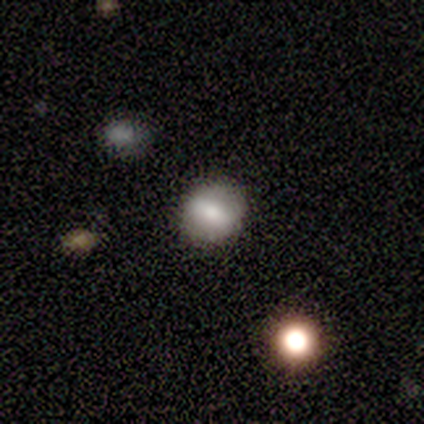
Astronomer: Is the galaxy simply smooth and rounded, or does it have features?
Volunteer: smooth — 66%.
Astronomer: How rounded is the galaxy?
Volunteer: round — 84%.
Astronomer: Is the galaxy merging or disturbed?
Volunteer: none — 94%.